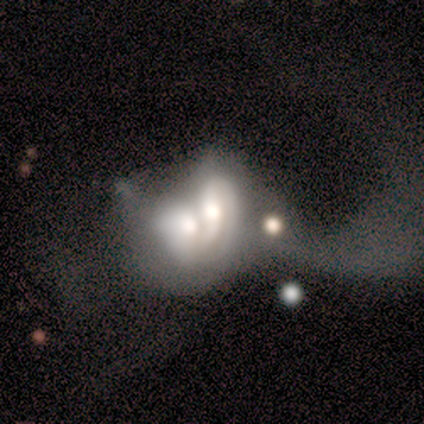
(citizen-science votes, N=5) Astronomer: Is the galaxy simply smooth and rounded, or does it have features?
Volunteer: smooth — 80%.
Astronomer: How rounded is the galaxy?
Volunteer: in between — 75%.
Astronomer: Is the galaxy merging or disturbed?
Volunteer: merger — 80%.